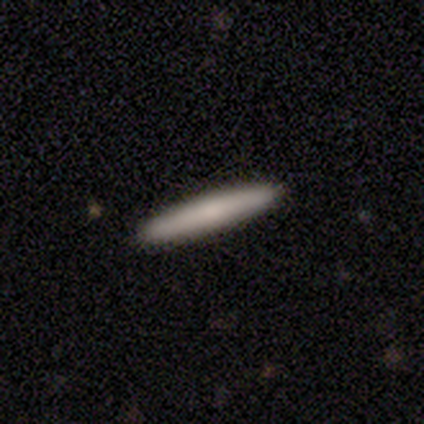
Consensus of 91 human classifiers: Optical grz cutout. It shows a smooth galaxy with no disk features (74%) that is cigar-shaped (99%). Merging: none (95%).